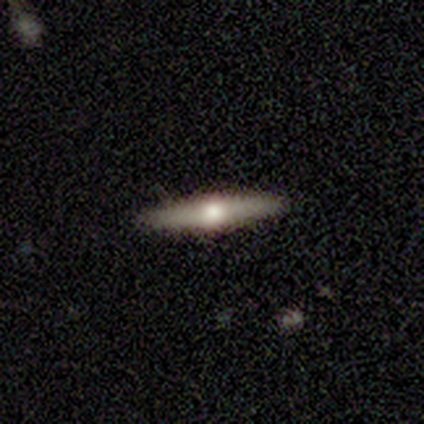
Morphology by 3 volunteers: Smooth or featured? 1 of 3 (33%, tied with featured or disk and star or artifact) said smooth. How rounded? 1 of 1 (100%) said cigar-shaped. Merging? 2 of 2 (100%) said none.